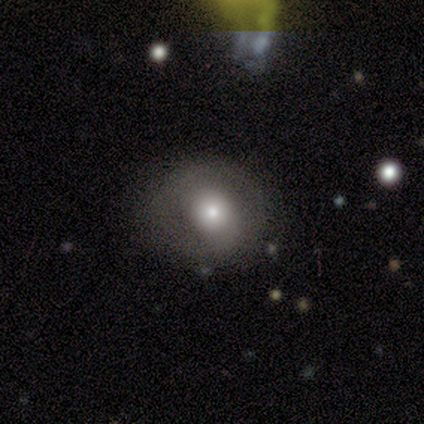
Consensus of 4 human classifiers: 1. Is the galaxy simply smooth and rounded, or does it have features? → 75% featured or disk, 25% star or artifact, 0% smooth.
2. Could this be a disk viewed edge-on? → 100% no, 0% yes.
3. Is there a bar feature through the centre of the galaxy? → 100% no, 0% strong, 0% weak.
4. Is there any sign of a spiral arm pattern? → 100% no, 0% yes.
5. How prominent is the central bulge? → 33% large (tied), 33% moderate (tied), 33% small (tied), 0% dominant, 0% none.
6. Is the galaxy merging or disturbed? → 67% minor disturbance, 33% none, 0% major disturbance, 0% merger.